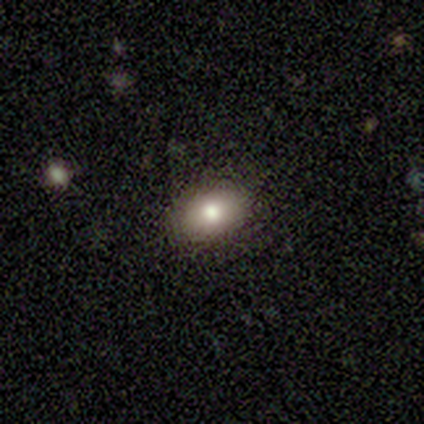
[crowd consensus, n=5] Smooth or featured? smooth (80%)
How rounded? in between (75%)
Merging? none (100%)